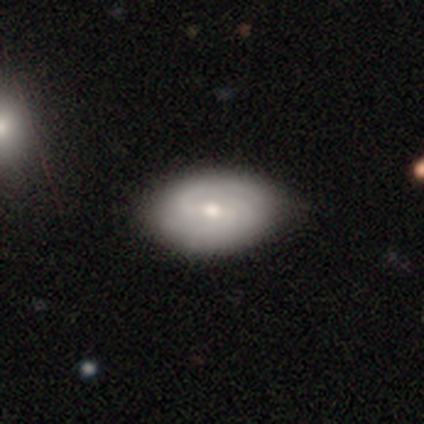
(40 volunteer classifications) Overall: featured or disk (62%; smooth 32%). Edge-on disk: no (92%). Bar: weak (57%; no 30%). Spiral arms: yes (83%). Spiral arm count: 2 (53%; 3 26%). Spiral winding: medium (58%; tight 42%). Bulge size: moderate (52%; small 43%). Merging: none (53%; minor disturbance 16%).